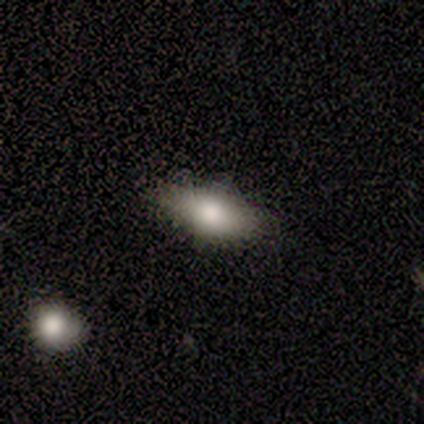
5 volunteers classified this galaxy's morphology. A smooth galaxy with no disk features (100%) that is in between round and cigar-shaped (100%). Merging: none (80%).